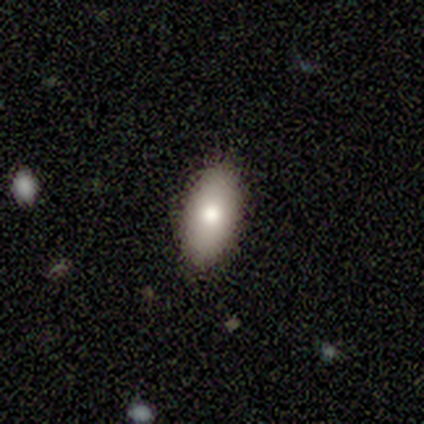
smooth-or-featured: smooth: 100% | featured or disk: 0% | star or artifact: 0%
  how-rounded: in between: 100% | round: 0% | cigar-shaped: 0%
  merging: none: 80% | minor disturbance: 20% | major disturbance: 0% | merger: 0%